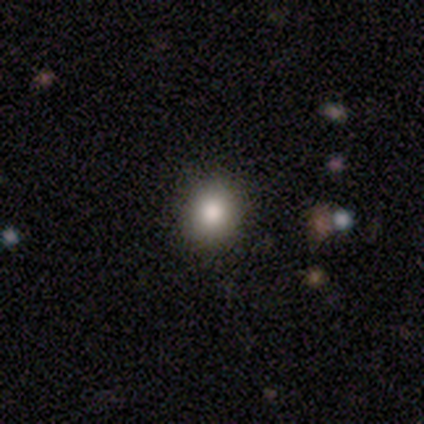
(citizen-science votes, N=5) Q: Smooth or featured?
A: smooth (60%); runner-up: featured or disk (40%)
Q: How rounded?
A: round (67%); runner-up: in between (33%)
Q: Merging?
A: none (100%)